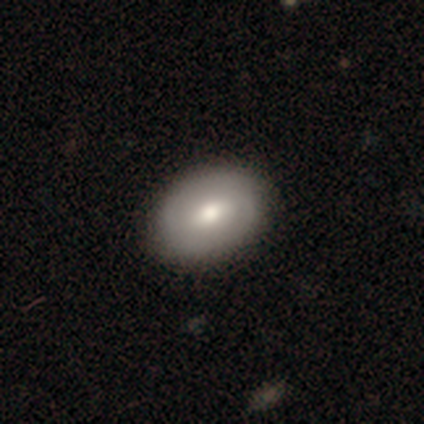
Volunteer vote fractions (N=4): Q: Smooth or featured?
A: smooth (50%); tied with: featured or disk (50%)
Q: How rounded?
A: in between (100%)
Q: Merging?
A: none (100%)